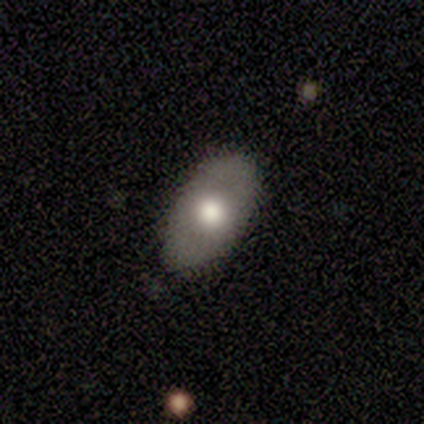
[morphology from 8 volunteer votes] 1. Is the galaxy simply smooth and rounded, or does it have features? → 50% smooth (tied), 50% featured or disk (tied), 0% star or artifact.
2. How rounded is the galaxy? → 100% in between, 0% round, 0% cigar-shaped.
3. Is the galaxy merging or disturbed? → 100% none, 0% minor disturbance, 0% major disturbance, 0% merger.